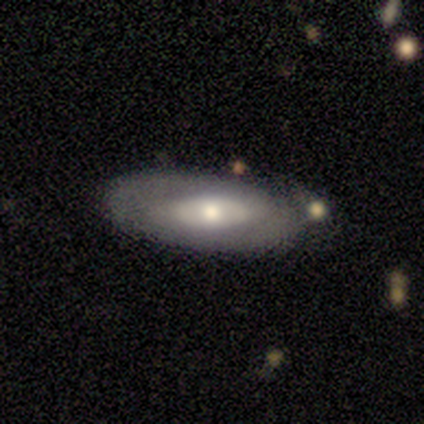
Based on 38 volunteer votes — Smooth or featured? 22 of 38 (58%) said featured or disk. Edge-on disk? 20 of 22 (91%) said no. Bar? 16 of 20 (80%) said no. Spiral arms? 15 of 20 (75%) said no. Bulge size? 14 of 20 (70%) said moderate. Merging? 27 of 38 (71%) said none.